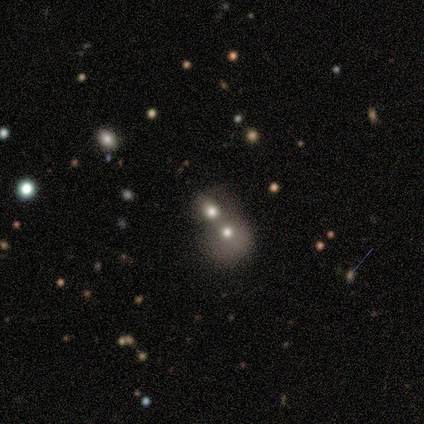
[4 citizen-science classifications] This appears to be a featured or disk galaxy (50%) with no bar (100%), no spiral arms (100%) and a moderate central bulge (50%, tied with small). Merging: merger (67%).